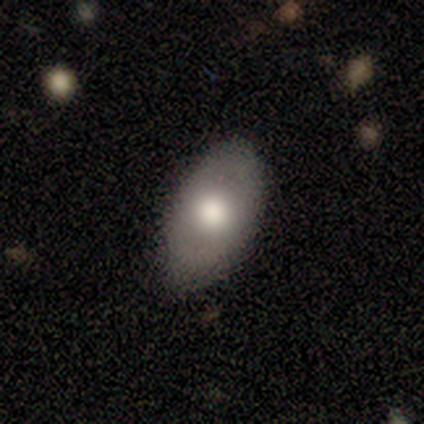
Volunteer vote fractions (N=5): Smooth or featured? 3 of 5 (60%) said smooth. How rounded? 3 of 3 (100%) said in between. Merging? 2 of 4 (50%, tied with minor disturbance) said none.